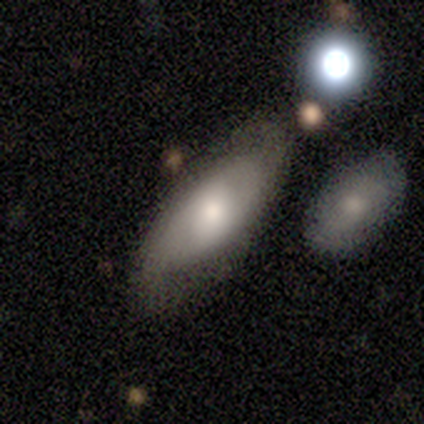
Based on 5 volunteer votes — smooth-or-featured: featured or disk: 100% | smooth: 0% | star or artifact: 0%
  disk-edge-on: no: 80% | yes: 20%
    bar: weak: 50% (tied) | no: 50% (tied) | strong: 0%
    has-spiral-arms: yes: 50% (tied) | no: 50% (tied)
      spiral-winding: medium: 50% (tied) | loose: 50% (tied) | tight: 0%
      spiral-arm-count: 2: 100% | 1: 0% | 3: 0% | 4: 0% | more than 4: 0% | can't tell: 0%
    bulge-size: moderate: 75% | large: 25% | dominant: 0% | small: 0% | none: 0%
  merging: none: 60% | minor disturbance: 20% | major disturbance: 20% | merger: 0%